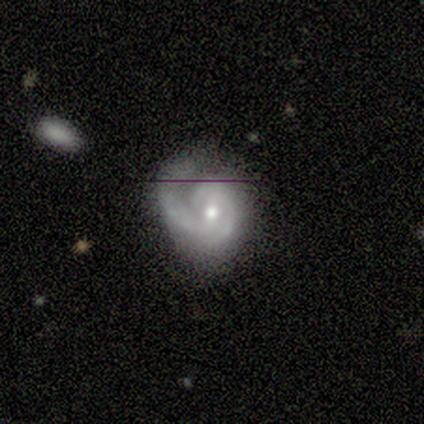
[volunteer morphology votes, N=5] smooth_or_featured: featured or disk (p=1.00)
disk_edge_on: no (p=1.00)
bar: weak (p=0.40) [tied with: no p=0.40]
has_spiral_arms: yes (p=1.00)
spiral_winding: tight (p=0.60) [alt: medium p=0.20]
spiral_arm_count: 1 (p=0.80) [alt: 2 p=0.20]
bulge_size: moderate (p=0.60) [alt: small p=0.40]
merging: none (p=0.60) [alt: minor disturbance p=0.40]